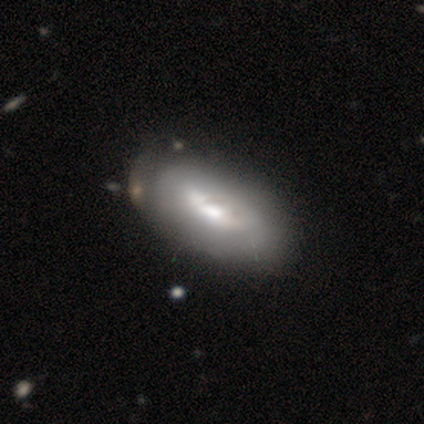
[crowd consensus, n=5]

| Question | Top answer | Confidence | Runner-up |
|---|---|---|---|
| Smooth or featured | smooth | 40% | tied: featured or disk (40%) |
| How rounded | in between | 100% | — |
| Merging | none | 50% | tied: minor disturbance (50%) |